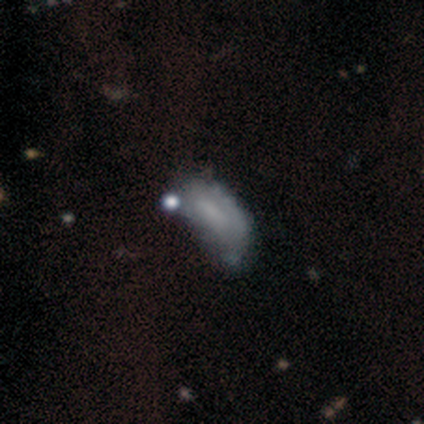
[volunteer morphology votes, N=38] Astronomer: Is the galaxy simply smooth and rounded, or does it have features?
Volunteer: smooth — 61%.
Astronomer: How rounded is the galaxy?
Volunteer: in between — 87%.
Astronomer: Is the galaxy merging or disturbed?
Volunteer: minor disturbance — 50% (runner-up: none, 29%).